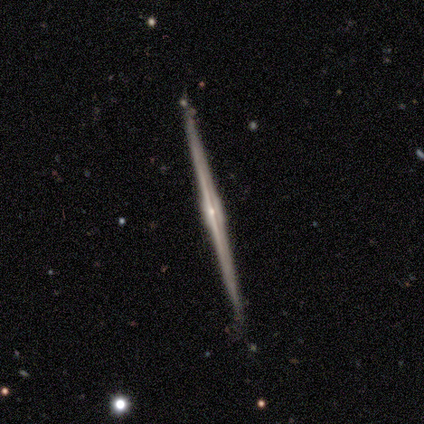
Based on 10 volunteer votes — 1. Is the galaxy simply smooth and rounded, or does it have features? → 90% featured or disk, 10% smooth, 0% star or artifact.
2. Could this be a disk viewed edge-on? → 100% yes, 0% no.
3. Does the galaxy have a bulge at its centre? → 67% rounded, 22% boxy, 11% none.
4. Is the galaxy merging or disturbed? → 100% none, 0% minor disturbance, 0% major disturbance, 0% merger.